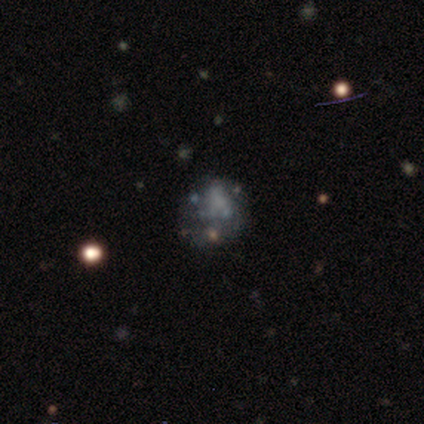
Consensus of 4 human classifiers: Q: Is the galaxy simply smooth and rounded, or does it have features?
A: smooth — 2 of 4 (50%, tied with featured or disk).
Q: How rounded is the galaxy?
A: round — 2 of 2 (100%).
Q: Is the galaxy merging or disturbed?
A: minor disturbance — 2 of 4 (50%, tied with major disturbance).